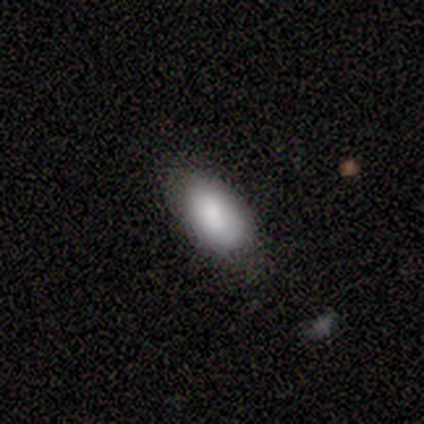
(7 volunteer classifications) This is clearly a smooth galaxy (86%). How rounded: clearly in between (83%). Merging: likely none (67%).